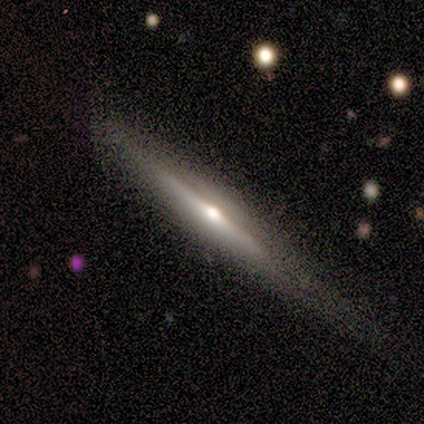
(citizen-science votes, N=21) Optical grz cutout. It shows a featured or disk galaxy (76%) viewed edge-on (94%) with a rounded central bulge (100%). Merging: none (63%).